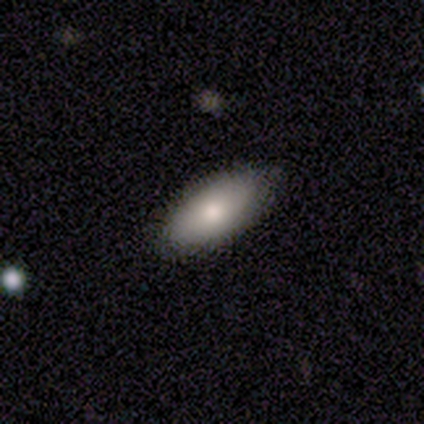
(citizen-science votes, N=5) smooth-or-featured: smooth: 100% | featured or disk: 0% | star or artifact: 0%
  how-rounded: in between: 100% | round: 0% | cigar-shaped: 0%
  merging: none: 100% | minor disturbance: 0% | major disturbance: 0% | merger: 0%